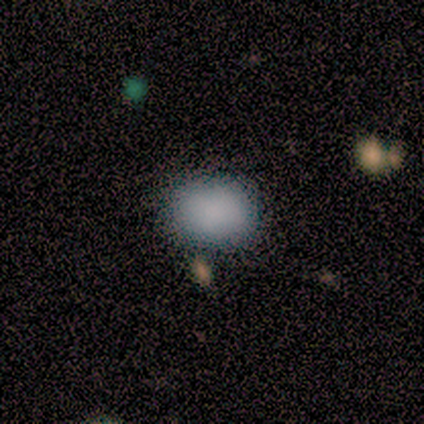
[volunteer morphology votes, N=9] Smooth or featured? smooth (100%)
How rounded? in between (56%)
Merging? none (78%)